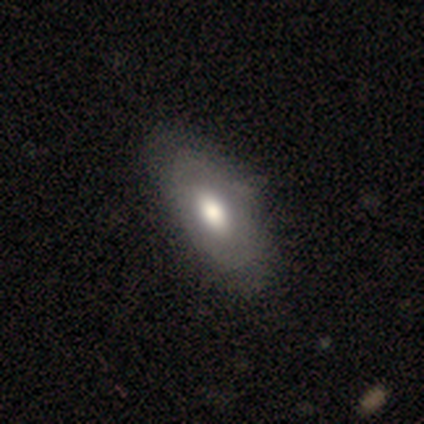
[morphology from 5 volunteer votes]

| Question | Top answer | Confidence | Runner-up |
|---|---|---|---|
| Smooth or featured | featured or disk | 60% | smooth (40%) |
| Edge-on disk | no | 67% | yes (33%) |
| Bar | no | 100% | — |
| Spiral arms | yes | 50% | tied: no (50%) |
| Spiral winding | tight | 100% | — |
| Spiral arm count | can't tell | 100% | — |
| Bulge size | large | 50% | tied: moderate (50%) |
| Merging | none | 60% | minor disturbance (20%) |